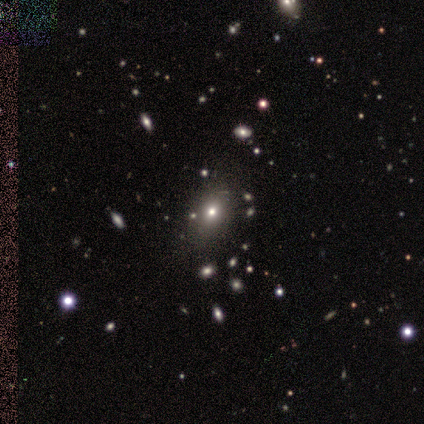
Overall: featured or disk (60%; smooth 40%). Edge-on disk: no (100%). Bar: no (100%). Spiral arms: no (100%). Bulge size: moderate (100%). Merging: none (100%).